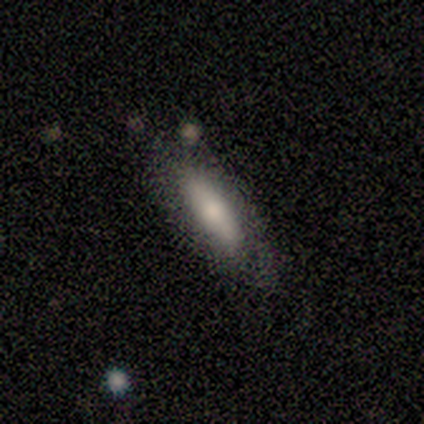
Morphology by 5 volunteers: Smooth or featured? smooth (60%)
How rounded? cigar-shaped (67%)
Merging? none (60%)